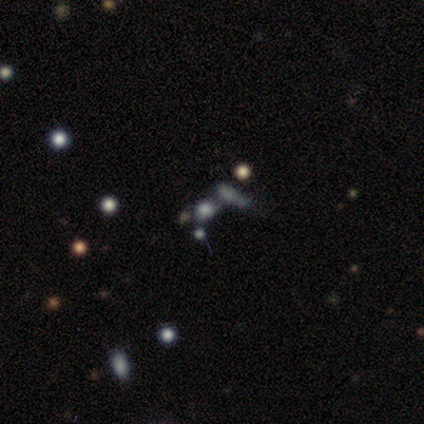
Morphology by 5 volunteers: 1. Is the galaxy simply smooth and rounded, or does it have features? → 40% smooth (tied), 40% star or artifact (tied), 20% featured or disk.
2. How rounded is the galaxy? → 50% round (tied), 50% in between (tied), 0% cigar-shaped.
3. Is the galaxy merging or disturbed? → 100% merger, 0% none, 0% minor disturbance, 0% major disturbance.